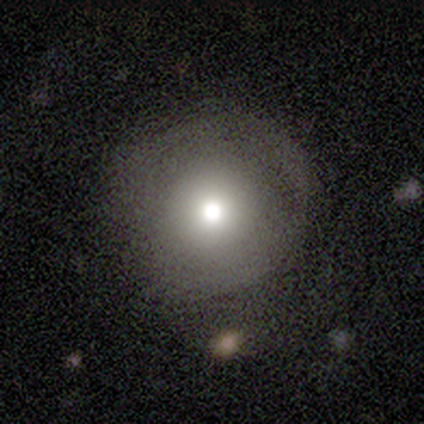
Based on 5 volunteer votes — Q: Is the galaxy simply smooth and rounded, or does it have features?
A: smooth — 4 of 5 (80%).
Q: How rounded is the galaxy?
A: round — 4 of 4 (100%).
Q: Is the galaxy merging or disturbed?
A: none — 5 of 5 (100%).